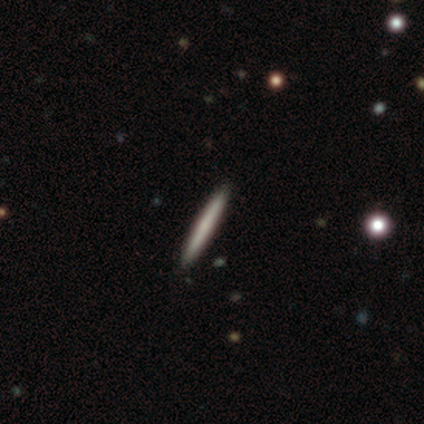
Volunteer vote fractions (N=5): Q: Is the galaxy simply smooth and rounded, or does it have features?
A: featured or disk — 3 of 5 (60%).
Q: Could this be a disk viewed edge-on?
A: yes — 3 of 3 (100%).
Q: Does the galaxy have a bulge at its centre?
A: none — 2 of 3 (67%).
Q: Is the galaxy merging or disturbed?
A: none — 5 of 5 (100%).